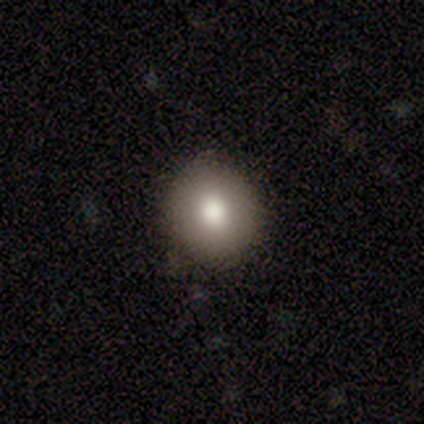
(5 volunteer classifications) A smooth galaxy with no disk features (60%) that is round (67%). Merging: none (100%).